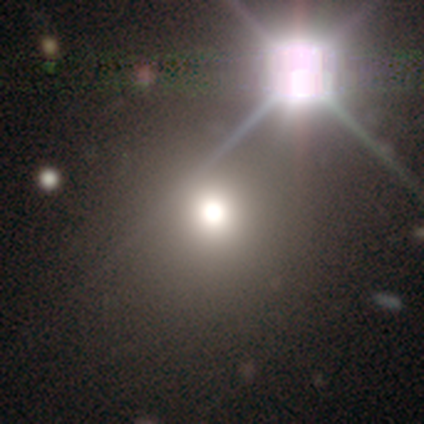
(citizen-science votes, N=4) This appears to be a star or artifact, not a galaxy (75%).